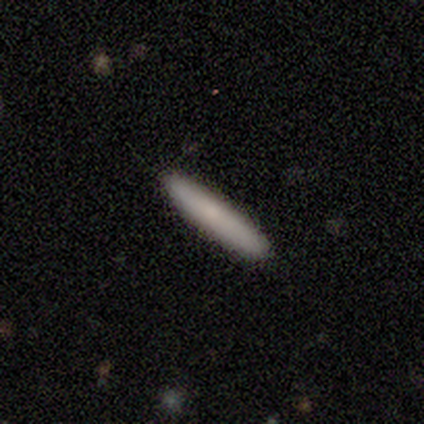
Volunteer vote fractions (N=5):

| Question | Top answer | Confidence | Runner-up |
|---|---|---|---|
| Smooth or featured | featured or disk | 60% | smooth (40%) |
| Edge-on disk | yes | 100% | — |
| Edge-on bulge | rounded | 67% | none (33%) |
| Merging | none | 80% | minor disturbance (20%) |